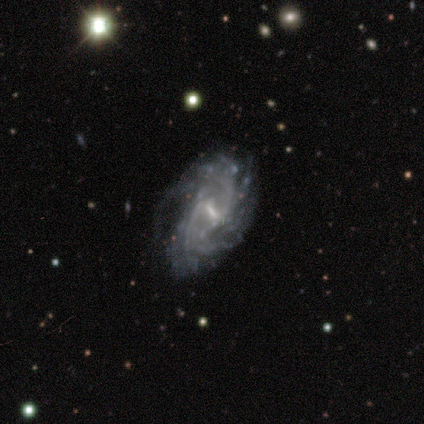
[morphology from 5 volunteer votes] Overall: featured or disk (100%). Edge-on disk: no (100%). Bar: weak (80%). Spiral arms: yes (100%). Spiral arm count: can't tell (80%). Spiral winding: loose (60%; medium 40%). Bulge size: small (80%). Merging: none (80%).